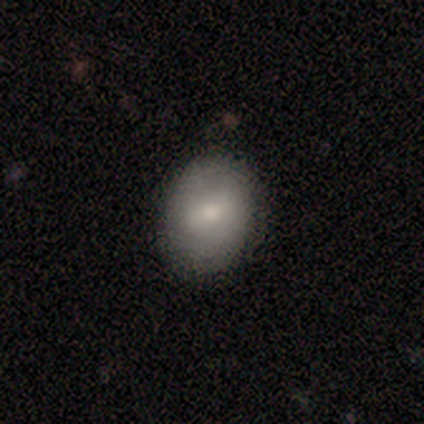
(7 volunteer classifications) Morphology: type=smooth (43%); roundness=round (67%); merging=none (80%).